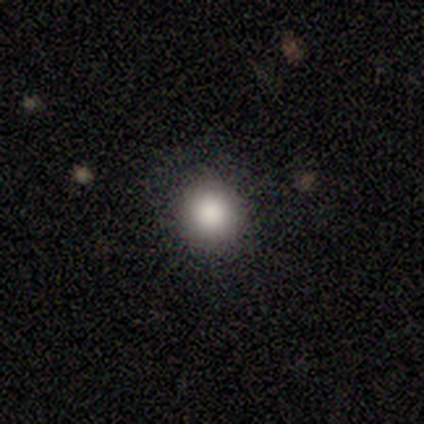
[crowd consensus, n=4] This appears to be a smooth galaxy with no disk features (100%) that is round (100%). Merging: none (100%).